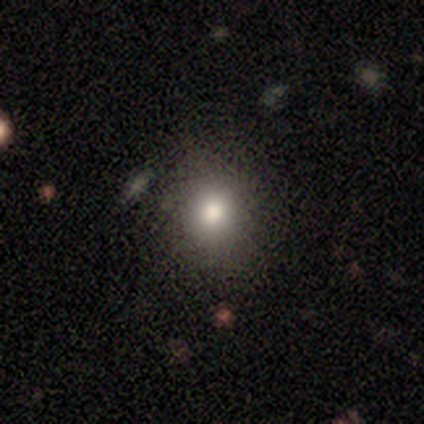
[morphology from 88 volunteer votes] Smooth or featured? smooth (74%)
How rounded? round (80%)
Merging? none (79%)